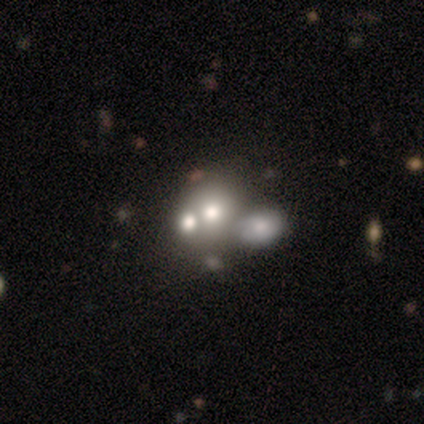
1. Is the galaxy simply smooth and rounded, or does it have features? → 46% smooth, 39% featured or disk, 15% star or artifact.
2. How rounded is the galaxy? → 65% round, 35% in between, 0% cigar-shaped.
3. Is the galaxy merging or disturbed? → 61% merger, 24% none, 11% minor disturbance, 4% major disturbance.